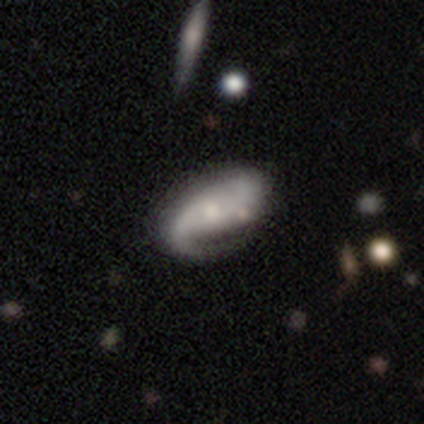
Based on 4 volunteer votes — smooth-or-featured: smooth: 50% (tied) | featured or disk: 50% (tied) | star or artifact: 0%
  how-rounded: in between: 100% | round: 0% | cigar-shaped: 0%
  merging: minor disturbance: 75% | none: 25% | major disturbance: 0% | merger: 0%